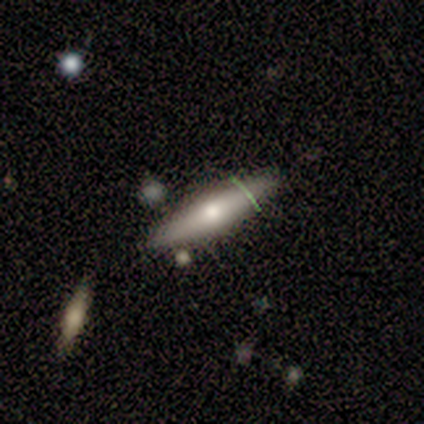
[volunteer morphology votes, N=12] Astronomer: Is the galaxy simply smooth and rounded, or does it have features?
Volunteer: smooth — 50%, tied with featured or disk at 50%.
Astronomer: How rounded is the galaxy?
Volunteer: cigar-shaped — 67%.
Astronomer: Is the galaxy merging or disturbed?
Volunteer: none — 67%.